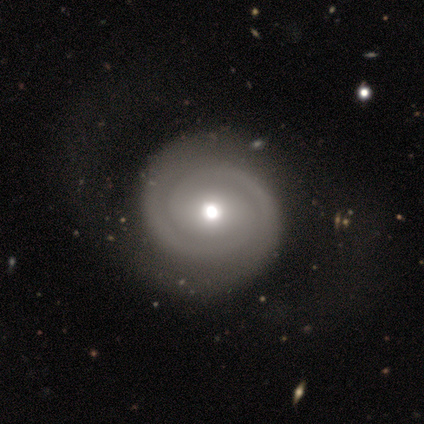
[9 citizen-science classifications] A featured or disk galaxy (89%) with no bar (100%), 2 (86%) tight (57%) spiral arms (88%) and a moderate central bulge (62%). Merging: none (50%).